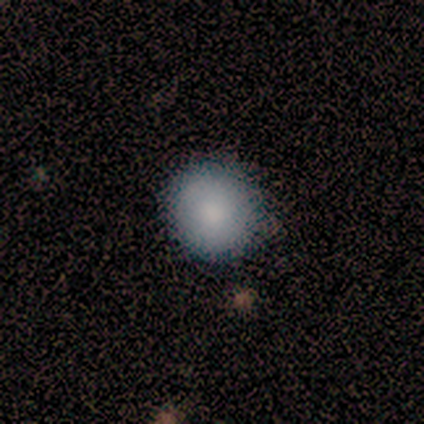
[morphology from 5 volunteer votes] smooth-or-featured: smooth: 100% | featured or disk: 0% | star or artifact: 0%
  how-rounded: round: 80% | in between: 20% | cigar-shaped: 0%
  merging: none: 80% | major disturbance: 20% | minor disturbance: 0% | merger: 0%